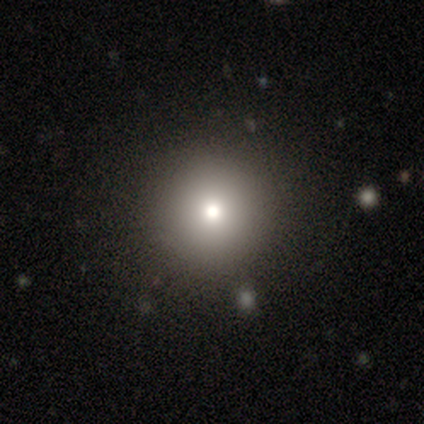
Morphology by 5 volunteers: Smooth or featured? 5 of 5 (100%) said smooth. How rounded? 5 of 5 (100%) said round. Merging? 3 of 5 (60%) said none.